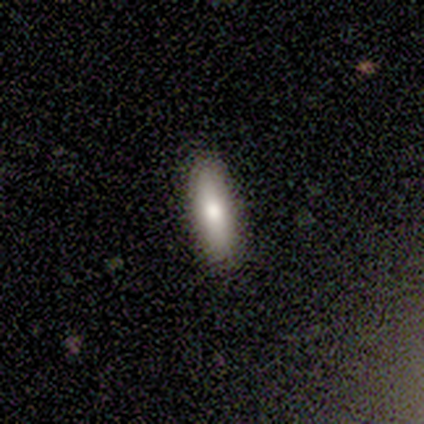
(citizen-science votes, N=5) Smooth or featured: smooth — 100%
How rounded: cigar-shaped — 80% (in between — 20%)
Merging: none — 100%